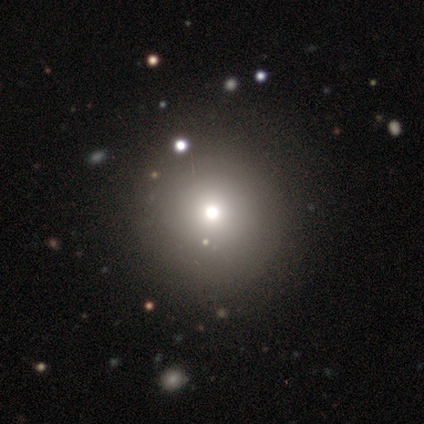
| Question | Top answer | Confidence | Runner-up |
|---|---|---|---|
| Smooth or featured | smooth | 80% | star or artifact (20%) |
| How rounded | round | 100% | — |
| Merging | none | 75% | minor disturbance (25%) |